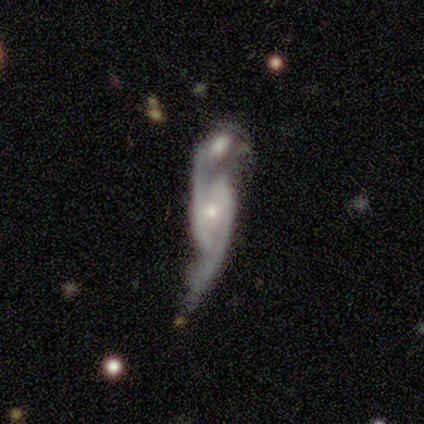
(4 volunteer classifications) This appears to be a featured or disk galaxy (75%) with a strong bar (33%, tied with weak and no), 2 (100%) loose (67%) spiral arms (100%) and a moderate central bulge (67%). Merging: merger (50%).